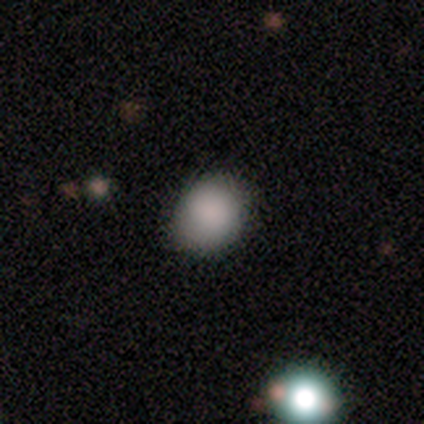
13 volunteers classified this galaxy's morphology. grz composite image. It shows a smooth galaxy with no disk features (100%) that is round (54%). Merging: none (69%).